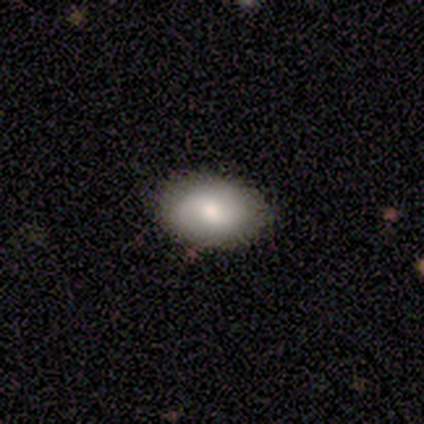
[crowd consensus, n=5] Smooth or featured? 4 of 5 (80%) said featured or disk. Edge-on disk? 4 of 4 (100%) said no. Bar? 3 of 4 (75%) said no. Spiral arms? 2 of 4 (50%, tied with no) said yes. Spiral winding? 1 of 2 (50%, tied with loose) said tight. Spiral arm count? 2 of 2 (100%) said 2. Bulge size? 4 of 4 (100%) said moderate. Merging? 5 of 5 (100%) said none.